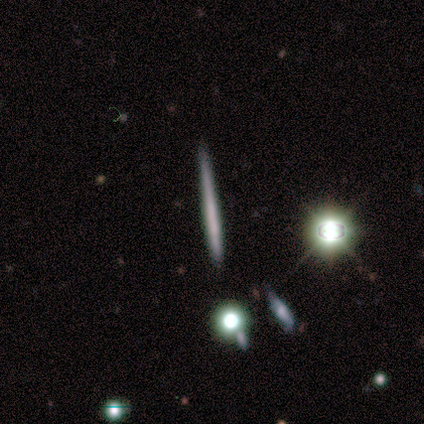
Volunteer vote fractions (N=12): A smooth galaxy with no disk features (42%) that is cigar-shaped (100%).

Vote fractions:
- Smooth or featured? smooth: 42% / featured or disk: 33% / star or artifact: 25%
- How rounded? cigar-shaped: 100% / round: 0% / in between: 0%
- Merging? none: 78% / minor disturbance: 22% / major disturbance: 0% / merger: 0%